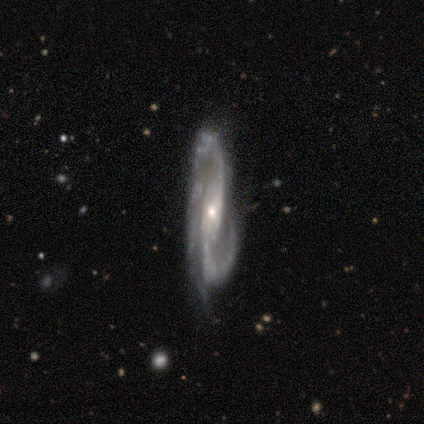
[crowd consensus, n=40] Smooth or featured? featured or disk (98%)
Edge-on disk? no (82%)
Bar? strong (34%, tied with no)
Spiral arms? yes (100%)
Spiral winding? medium (56%)
Spiral arm count? 2 (81%)
Bulge size? small (66%)
Merging? none (65%)